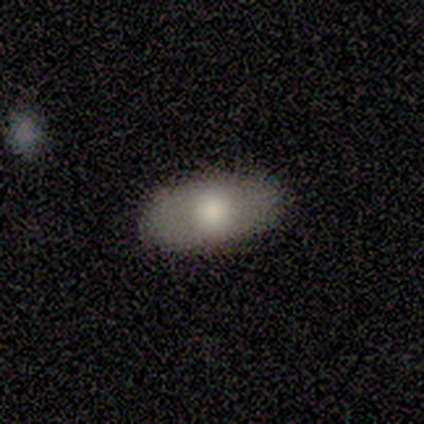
Smooth or featured? smooth (100%)
How rounded? in between (100%)
Merging? none (80%)